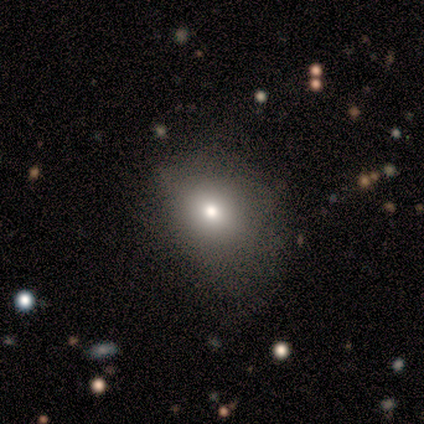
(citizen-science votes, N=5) smooth 80%, star or artifact 20%, featured or disk 0%. Down the decision tree: how rounded — round (75%); merging — minor disturbance (75%).